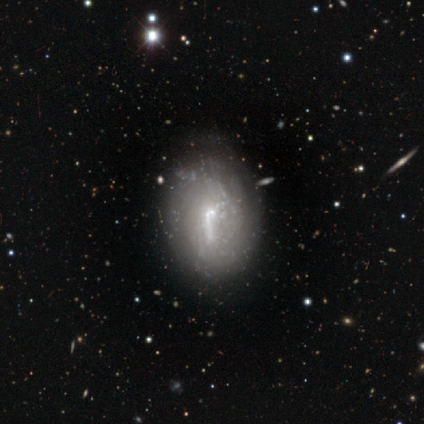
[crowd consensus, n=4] smooth-or-featured: smooth: 50% (tied) | featured or disk: 50% (tied) | star or artifact: 0%
  how-rounded: in between: 100% | round: 0% | cigar-shaped: 0%
  merging: none: 50% | minor disturbance: 25% | merger: 25% | major disturbance: 0%